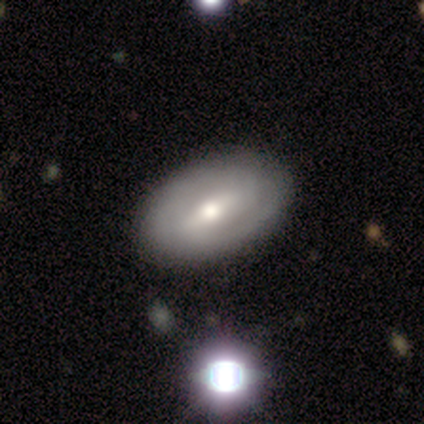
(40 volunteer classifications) A featured or disk galaxy (78%) with a weak bar (53%), 2 (74%) tight (52%) spiral arms (77%) and a moderate central bulge (73%). Merging: none (73%).